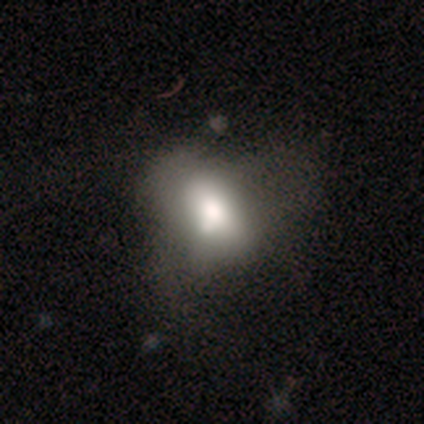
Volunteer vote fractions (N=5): Smooth or featured? smooth (60%)
How rounded? in between (67%)
Merging? none (25%, tied with minor disturbance, major disturbance and merger)